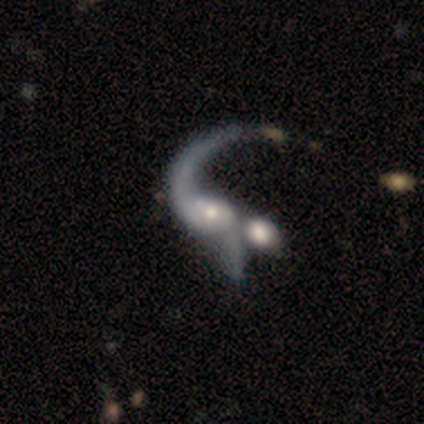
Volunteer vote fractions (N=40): This is clearly a featured or disk galaxy (85%). It is clearly not viewed edge-on (100%). Bar: likely no (76%). Spiral arm pattern: likely yes (65%). Spiral arm count: possibly 1 (55%). Spiral winding: clearly loose (91%). Central bulge: possibly moderate (47%). Merging: marginally merger (41%).